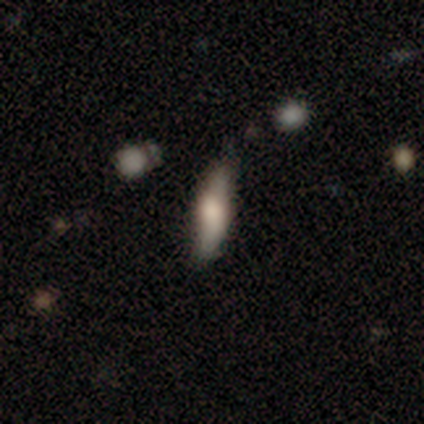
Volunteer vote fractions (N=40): Morphology: type=smooth (50%); roundness=cigar-shaped (75%); merging=none (79%).